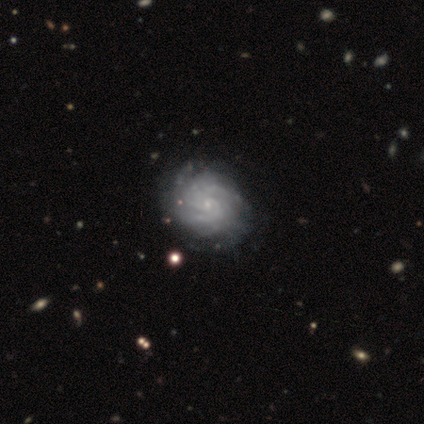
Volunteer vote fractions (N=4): Smooth or featured: featured or disk — 75% (smooth — 25%)
Edge-on disk: no — 100%
Bar: no — 100%
Spiral arms: yes — 100%
Spiral winding: tight — 100%
Spiral arm count: 3 — 33% (tied with more than 4 — 33%; can't tell — 33%)
Bulge size: small — 100%
Merging: none — 75% (minor disturbance — 25%)